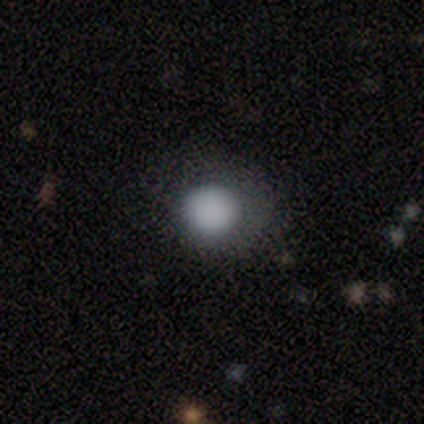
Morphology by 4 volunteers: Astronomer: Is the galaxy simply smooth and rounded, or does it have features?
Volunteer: smooth — 100%.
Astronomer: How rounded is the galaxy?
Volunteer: round — 100%.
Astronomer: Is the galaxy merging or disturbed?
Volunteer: none — 50%, tied with minor disturbance at 50%.